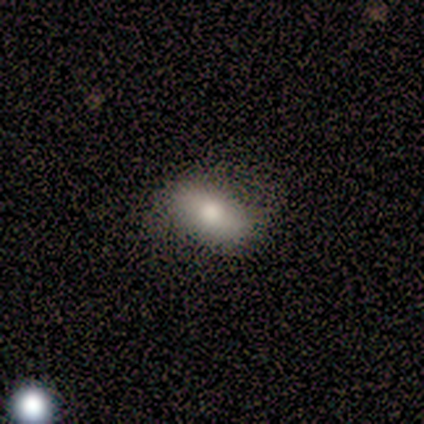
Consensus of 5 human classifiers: Morphology: type=smooth (80%); roundness=in between (75%); merging=none (80%).